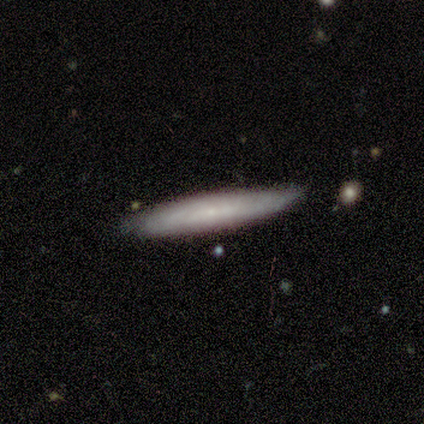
This appears to be a smooth galaxy with no disk features (60%) that is cigar-shaped (100%). Merging: none (100%).